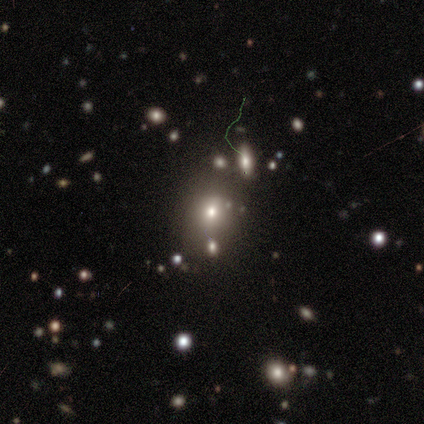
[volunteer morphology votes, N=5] type=star or artifact (60%).